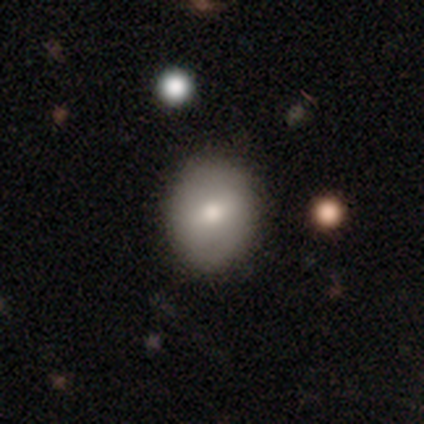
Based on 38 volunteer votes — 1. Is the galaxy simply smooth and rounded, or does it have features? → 58% smooth, 32% featured or disk, 11% star or artifact.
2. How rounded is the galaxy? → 68% round, 32% in between, 0% cigar-shaped.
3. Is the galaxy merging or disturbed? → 91% none, 9% minor disturbance, 0% major disturbance, 0% merger.